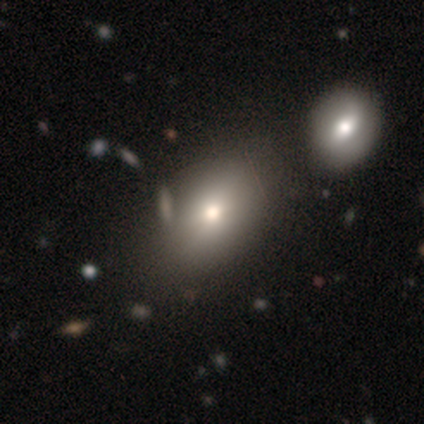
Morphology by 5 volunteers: A featured or disk galaxy (60%) with no bar (100%), no spiral arms (100%) and a moderate central bulge (100%).

Vote fractions:
- Smooth or featured? featured or disk: 60% / smooth: 40% / star or artifact: 0%
- Edge-on disk? no: 100% / yes: 0%
- Bar? no: 100% / strong: 0% / weak: 0%
- Spiral arms? no: 100% / yes: 0%
- Bulge size? moderate: 100% / dominant: 0% / large: 0% / small: 0% / none: 0%
- Merging? none: 80% / merger: 20% / minor disturbance: 0% / major disturbance: 0%